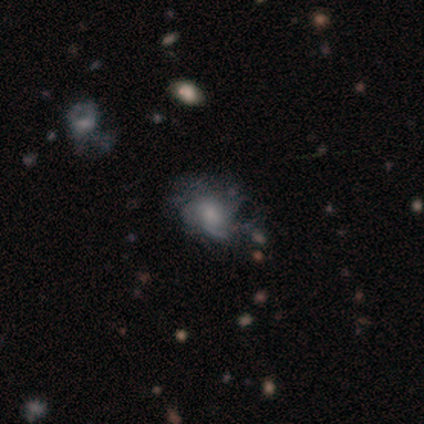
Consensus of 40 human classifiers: Smooth or featured?
  - featured or disk: 65% *
  - smooth: 22%
  - star or artifact: 12%
Edge-on disk?
  - no: 96% *
  - yes: 4%
Bar?
  - no: 84% *
  - weak: 16%
  - strong: 0%
Spiral arms?
  - yes: 76% *
  - no: 24%
Spiral winding?
  - tight: 63% *
  - medium: 21%
  - loose: 16%
Spiral arm count?
  - can't tell: 53% *
  - 3: 16%
  - more than 4: 16%
  - 2: 11%
  - 1: 5%
  - 4: 0%
Bulge size?
  - small: 44% *
  - moderate: 32%
  - large: 20%
  - none: 4%
  - dominant: 0%
Merging?
  - minor disturbance: 43% *
  - none: 40%
  - major disturbance: 17%
  - merger: 0%